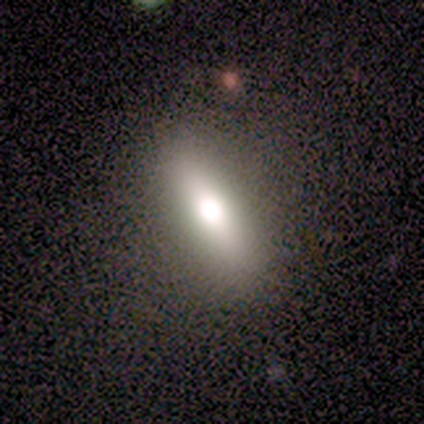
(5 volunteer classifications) A featured or disk galaxy (40%, tied with star or artifact) viewed edge-on (100%) with a rounded central bulge (100%).

Vote fractions:
- Smooth or featured? featured or disk: 40% (tied) / star or artifact: 40% (tied) / smooth: 20%
- Edge-on disk? yes: 100% / no: 0%
- Edge-on bulge? rounded: 100% / boxy: 0% / none: 0%
- Merging? none: 100% / minor disturbance: 0% / major disturbance: 0% / merger: 0%